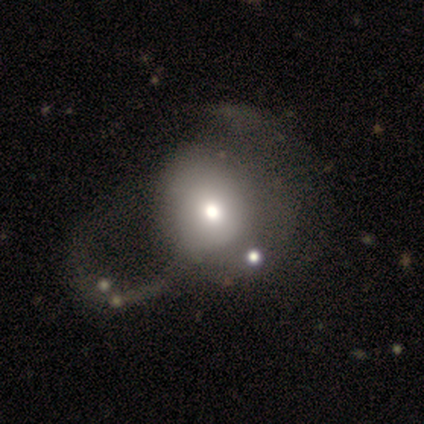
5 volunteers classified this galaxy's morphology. Q: Smooth or featured?
A: smooth (60%); runner-up: featured or disk (20%)
Q: How rounded?
A: round (100%)
Q: Merging?
A: major disturbance (100%)